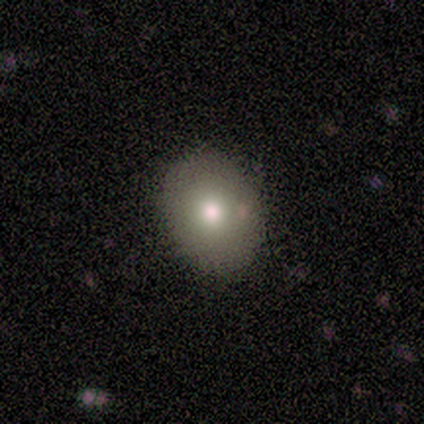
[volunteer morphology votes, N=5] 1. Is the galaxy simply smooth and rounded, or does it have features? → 60% smooth, 40% featured or disk, 0% star or artifact.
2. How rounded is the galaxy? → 67% in between, 33% round, 0% cigar-shaped.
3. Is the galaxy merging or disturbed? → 100% none, 0% minor disturbance, 0% major disturbance, 0% merger.